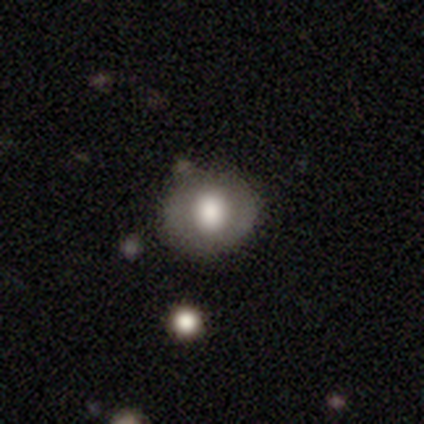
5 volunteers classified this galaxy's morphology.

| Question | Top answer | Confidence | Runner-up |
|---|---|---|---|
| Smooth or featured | smooth | 80% | featured or disk (20%) |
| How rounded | in between | 75% | round (25%) |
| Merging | none | 60% | major disturbance (20%) |